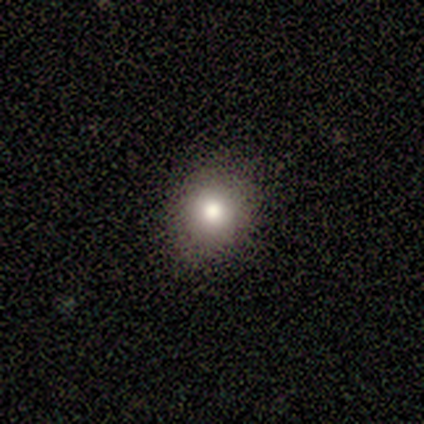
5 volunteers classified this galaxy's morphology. This appears to be a smooth galaxy with no disk features (100%) that is in between round and cigar-shaped (60%). Merging: none (100%).